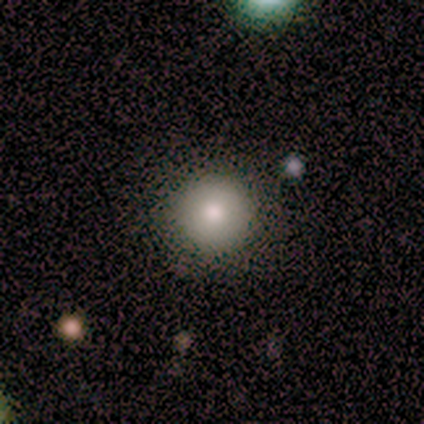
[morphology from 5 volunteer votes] smooth_or_featured: smooth (p=1.00)
how_rounded: round (p=1.00)
merging: none (p=0.80) [alt: minor disturbance p=0.20]